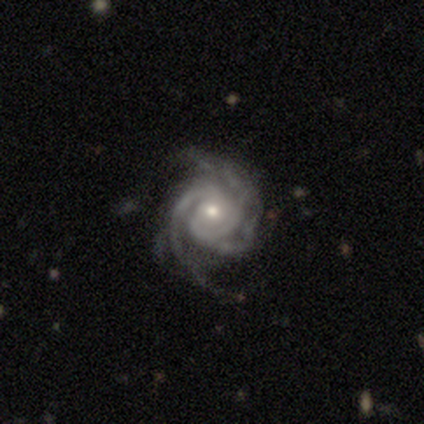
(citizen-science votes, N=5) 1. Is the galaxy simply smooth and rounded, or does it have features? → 100% featured or disk, 0% smooth, 0% star or artifact.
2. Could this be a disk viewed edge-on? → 100% no, 0% yes.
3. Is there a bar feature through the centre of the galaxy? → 80% no, 20% weak, 0% strong.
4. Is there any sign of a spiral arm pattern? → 100% yes, 0% no.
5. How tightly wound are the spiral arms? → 60% tight, 40% medium, 0% loose.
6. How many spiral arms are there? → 40% 4, 20% 2, 20% 3, 20% can't tell, 0% 1, 0% more than 4.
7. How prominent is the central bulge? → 80% small, 20% moderate, 0% dominant, 0% large, 0% none.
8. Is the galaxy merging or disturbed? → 80% none, 20% major disturbance, 0% minor disturbance, 0% merger.